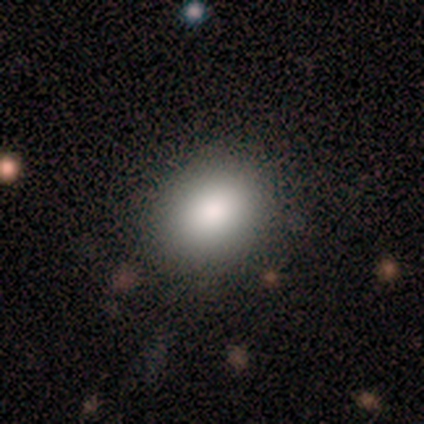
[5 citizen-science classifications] Volunteers were most divided on "how rounded": in between: 60%, round: 40%, cigar-shaped: 0%. More confident: smooth or featured — smooth (100%); merging — none (80%).